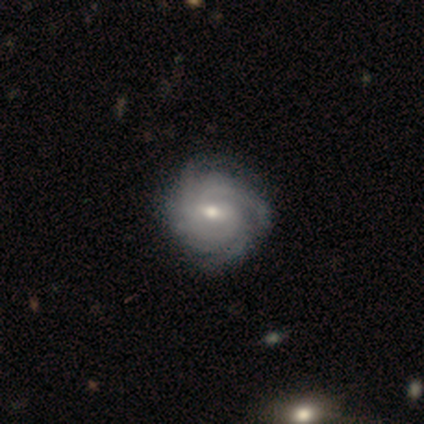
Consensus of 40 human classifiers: Smooth or featured? featured or disk (85%)
Edge-on disk? no (100%)
Bar? weak (56%)
Spiral arms? yes (97%)
Spiral winding? tight (67%)
Spiral arm count? 4 (39%)
Bulge size? moderate (65%)
Merging? none (49%)